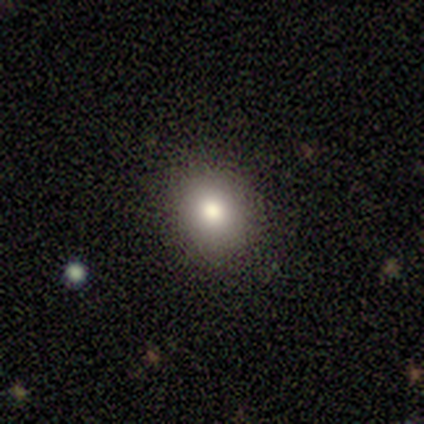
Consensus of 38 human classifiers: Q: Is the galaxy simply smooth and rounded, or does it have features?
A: smooth — 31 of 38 (82%).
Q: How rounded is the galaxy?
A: round — 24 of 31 (77%).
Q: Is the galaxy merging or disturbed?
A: none — 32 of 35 (91%).